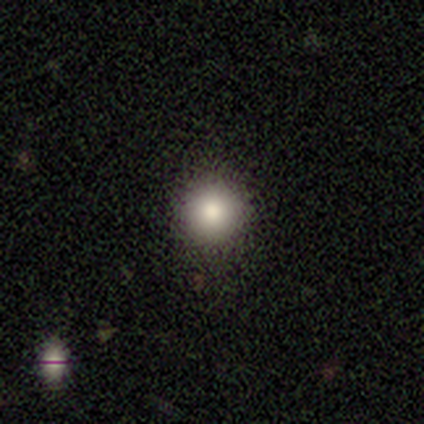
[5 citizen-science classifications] Smooth or featured?
  - smooth: 80% *
  - star or artifact: 20%
  - featured or disk: 0%
How rounded?
  - round: 75% *
  - in between: 25%
  - cigar-shaped: 0%
Merging?
  - none: 75% *
  - minor disturbance: 25%
  - major disturbance: 0%
  - merger: 0%